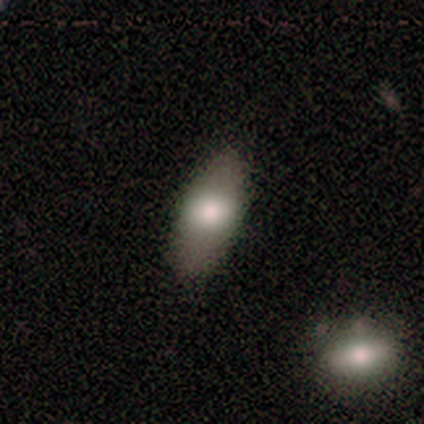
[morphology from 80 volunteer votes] Smooth or featured?
  - smooth: 74% *
  - featured or disk: 18%
  - star or artifact: 9%
How rounded?
  - in between: 83% *
  - cigar-shaped: 10%
  - round: 7%
Merging?
  - none: 74% *
  - minor disturbance: 18%
  - merger: 5%
  - major disturbance: 3%